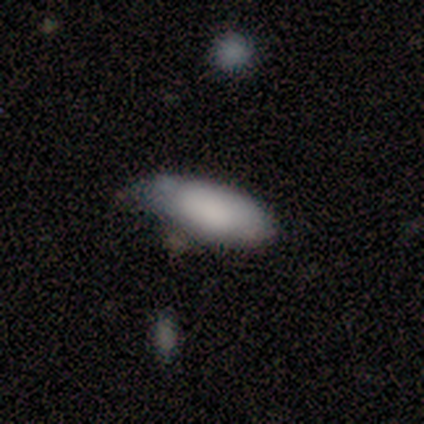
This is clearly a smooth galaxy (80%). How rounded: clearly in between (100%). Merging: possibly none (50%, tied with minor disturbance).